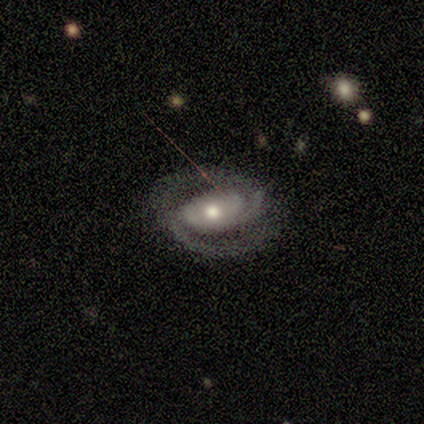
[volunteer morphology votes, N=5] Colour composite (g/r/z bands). It shows a featured or disk galaxy (100%) with no bar (60%), 2 (80%) tight (40%, tied with medium) spiral arms (100%) and a moderate central bulge (80%). Merging: none (100%).